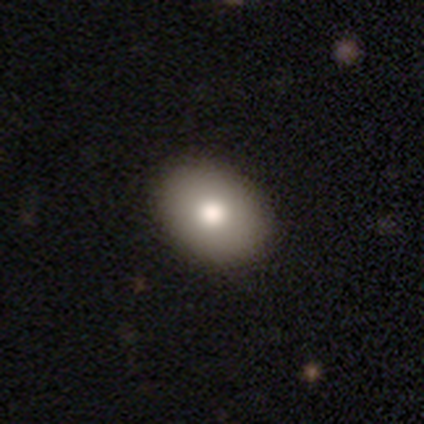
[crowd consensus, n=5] Q: Smooth or featured?
A: featured or disk (80%); runner-up: smooth (20%)
Q: Edge-on disk?
A: no (75%); runner-up: yes (25%)
Q: Bar?
A: no (100%)
Q: Spiral arms?
A: no (100%)
Q: Bulge size?
A: moderate (100%)
Q: Merging?
A: none (100%)